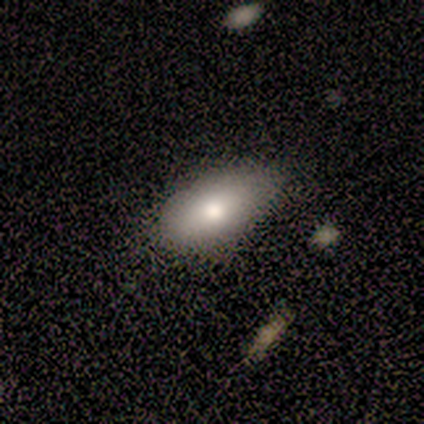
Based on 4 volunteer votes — A smooth galaxy with no disk features (75%) that is in between round and cigar-shaped (67%). Merging: none (100%).